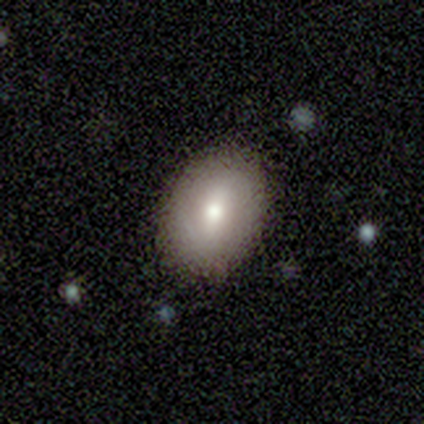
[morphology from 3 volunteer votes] Smooth or featured? smooth (100%)
How rounded? in between (67%)
Merging? none (100%)